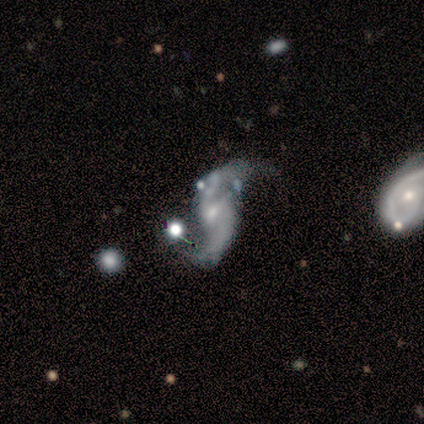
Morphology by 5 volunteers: Volunteers were most divided on "bar": weak: 80%, no: 20%, strong: 0%. More confident: smooth or featured — featured or disk (100%); edge-on disk — no (100%); spiral arms — yes (100%); spiral winding — loose (100%); spiral arm count — 2 (80%); bulge size — small (80%); merging — none (80%).